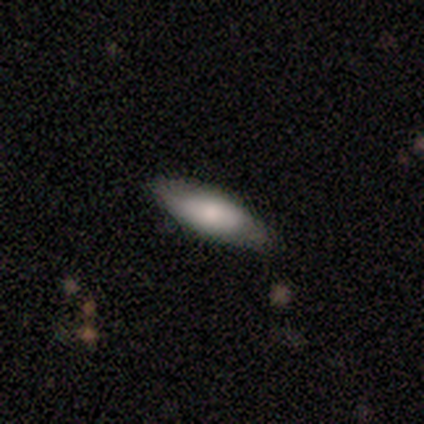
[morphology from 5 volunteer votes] Smooth or featured?
  - featured or disk: 60% *
  - smooth: 40%
  - star or artifact: 0%
Edge-on disk?
  - no: 67% *
  - yes: 33%
Bar?
  - no: 100% *
  - strong: 0%
  - weak: 0%
Spiral arms?
  - no: 100% *
  - yes: 0%
Bulge size?
  - moderate: 100% *
  - dominant: 0%
  - large: 0%
  - small: 0%
  - none: 0%
Merging?
  - none: 100% *
  - minor disturbance: 0%
  - major disturbance: 0%
  - merger: 0%